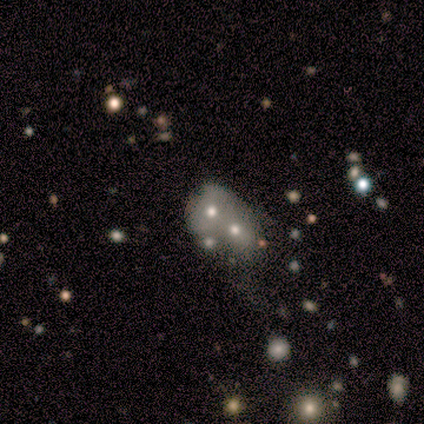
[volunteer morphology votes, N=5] smooth_or_featured: smooth (p=0.40) [tied with: star or artifact p=0.40]
how_rounded: round (p=0.50) [tied with: in between p=0.50]
merging: merger (p=0.67) [alt: none p=0.33]